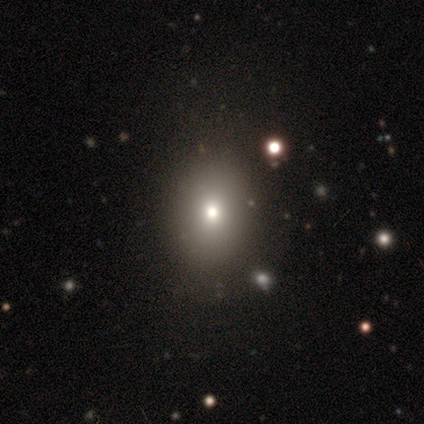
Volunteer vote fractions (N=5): Q: Smooth or featured?
A: smooth (60%); runner-up: featured or disk (20%)
Q: How rounded?
A: in between (67%); runner-up: round (33%)
Q: Merging?
A: none (100%)